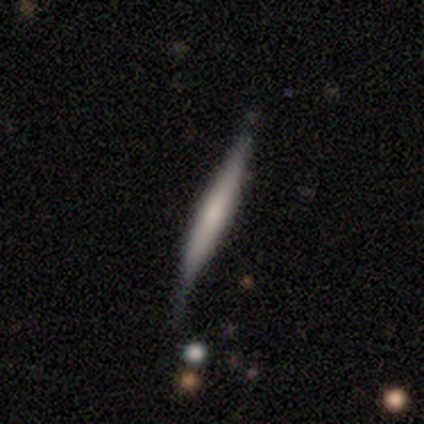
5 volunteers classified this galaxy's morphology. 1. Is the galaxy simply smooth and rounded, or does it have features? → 60% featured or disk, 20% smooth, 20% star or artifact.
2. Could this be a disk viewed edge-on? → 100% yes, 0% no.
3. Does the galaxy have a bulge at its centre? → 100% none, 0% boxy, 0% rounded.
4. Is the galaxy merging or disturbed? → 50% none (tied), 50% minor disturbance (tied), 0% major disturbance, 0% merger.